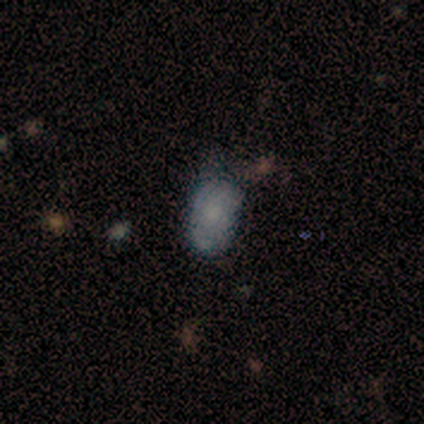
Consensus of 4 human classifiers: Smooth or featured? 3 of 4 (75%) said smooth. How rounded? 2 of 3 (67%) said in between. Merging? 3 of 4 (75%) said none.